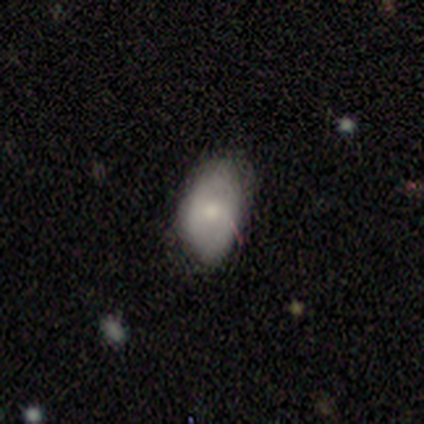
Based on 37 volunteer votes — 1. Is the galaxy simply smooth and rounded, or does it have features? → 62% smooth, 38% featured or disk, 0% star or artifact.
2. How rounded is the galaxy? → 91% in between, 9% round, 0% cigar-shaped.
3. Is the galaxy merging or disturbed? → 59% none, 38% minor disturbance, 3% major disturbance, 0% merger.